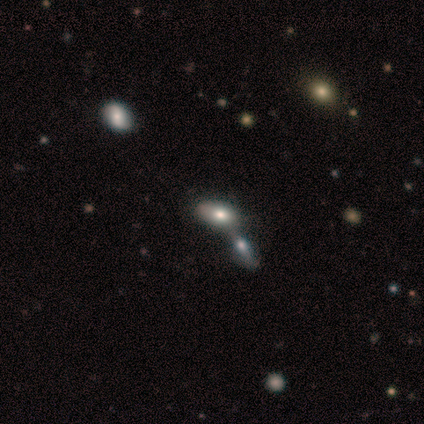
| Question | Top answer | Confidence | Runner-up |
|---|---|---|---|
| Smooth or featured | smooth | 75% | featured or disk (25%) |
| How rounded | in between | 100% | — |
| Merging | none | 75% | merger (25%) |